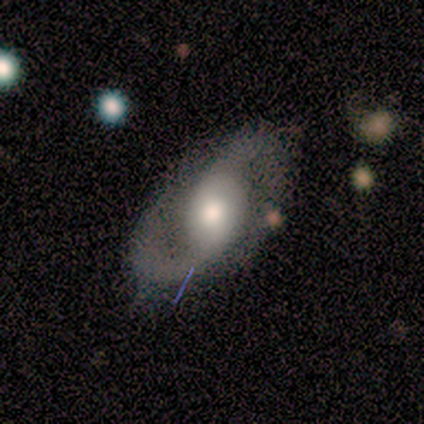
This appears to be a featured or disk galaxy (80%) with a weak bar (75%), 2 (100%) medium (50%, tied with loose) spiral arms (100%) and a moderate central bulge (50%). Merging: none (50%, tied with minor disturbance).